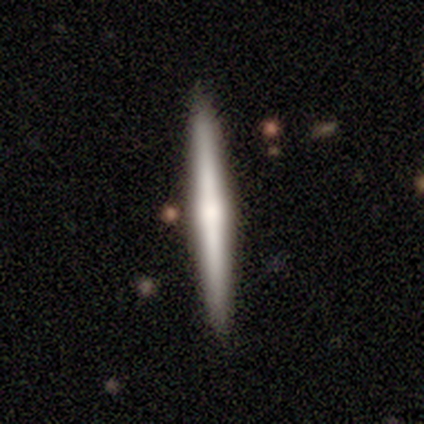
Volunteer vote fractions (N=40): A featured or disk galaxy (52%) viewed edge-on (95%) with a rounded central bulge (50%).

Vote fractions:
- Smooth or featured? featured or disk: 52% / smooth: 42% / star or artifact: 5%
- Edge-on disk? yes: 95% / no: 5%
- Edge-on bulge? rounded: 50% / boxy: 25% / none: 25%
- Merging? none: 63% / minor disturbance: 3% / major disturbance: 3% / merger: 0%